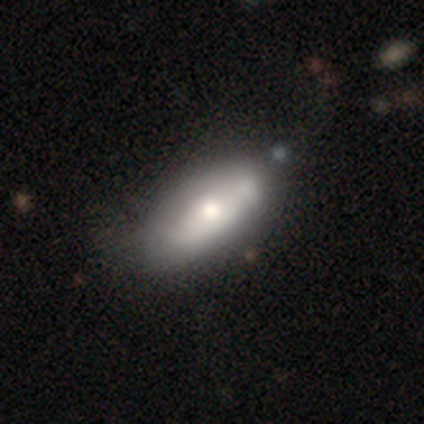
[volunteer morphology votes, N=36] Smooth or featured? smooth (61%)
How rounded? in between (91%)
Merging? none (51%)